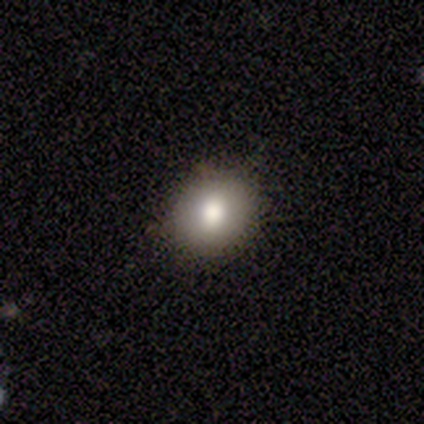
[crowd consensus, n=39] Volunteers were most divided on "how rounded": round: 67%, in between: 30%, cigar-shaped: 3%. More confident: merging — none (92%); smooth or featured — smooth (85%).